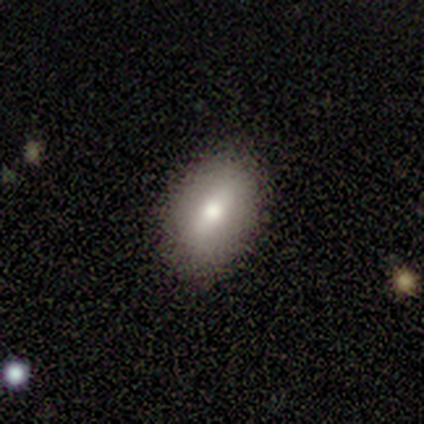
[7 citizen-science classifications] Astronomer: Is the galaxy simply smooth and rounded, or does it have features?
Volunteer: smooth — 71%.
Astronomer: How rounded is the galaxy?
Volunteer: in between — 100%.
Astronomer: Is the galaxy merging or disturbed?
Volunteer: none — 67%.